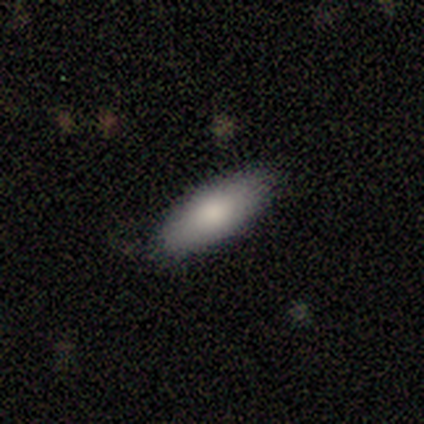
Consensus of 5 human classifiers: Volunteers were most divided on "bar": no: 67%, weak: 33%, strong: 0%. More confident: edge-on disk — no (100%); spiral arms — no (100%); merging — none (75%); bulge size — moderate (67%); smooth or featured — featured or disk (60%).